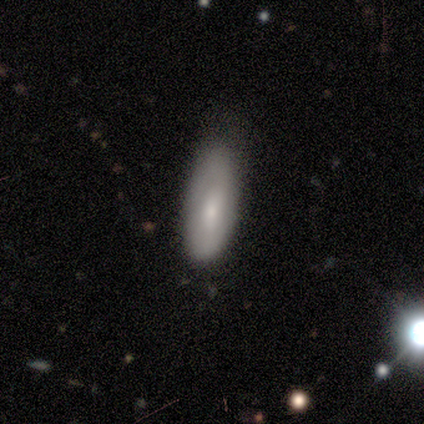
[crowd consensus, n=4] This appears to be a smooth galaxy with no disk features (100%) that is in between round and cigar-shaped (75%). Merging: minor disturbance (50%).